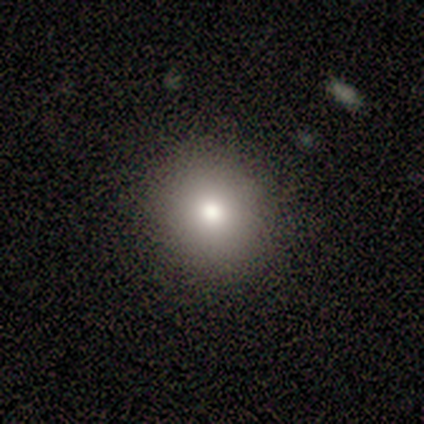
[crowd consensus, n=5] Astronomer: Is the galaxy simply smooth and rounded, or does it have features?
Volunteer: smooth — 100%.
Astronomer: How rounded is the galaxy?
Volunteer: round — 100%.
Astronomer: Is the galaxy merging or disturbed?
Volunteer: none — 80%.